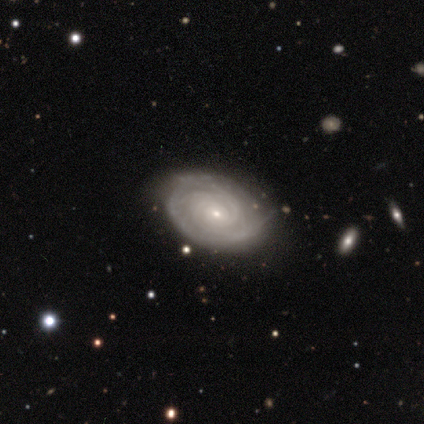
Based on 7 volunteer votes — Smooth or featured? featured or disk (100%)
Edge-on disk? no (100%)
Bar? no (86%)
Spiral arms? yes (100%)
Spiral winding? tight (86%)
Spiral arm count? can't tell (71%)
Bulge size? small (86%)
Merging? none (71%)